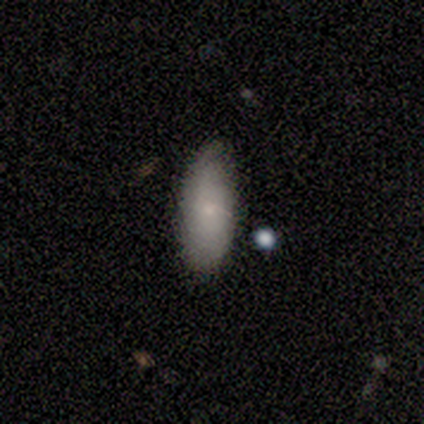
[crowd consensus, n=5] Volunteers were most divided on "smooth or featured": smooth: 80%, featured or disk: 20%, star or artifact: 0%. More confident: how rounded — in between (100%); merging — none (100%).